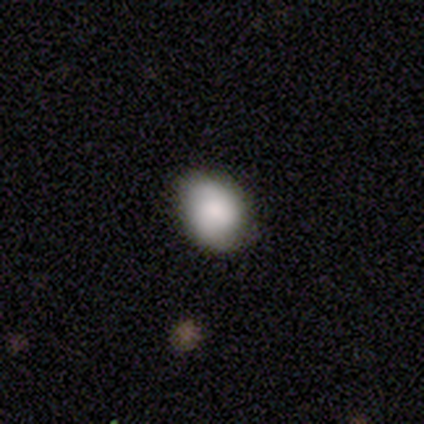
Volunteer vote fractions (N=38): A smooth galaxy with no disk features (87%) that is in between round and cigar-shaped (73%).

Vote fractions:
- Smooth or featured? smooth: 87% / star or artifact: 11% / featured or disk: 3%
- How rounded? in between: 73% / round: 27% / cigar-shaped: 0%
- Merging? none: 71% / minor disturbance: 24% / major disturbance: 6% / merger: 0%